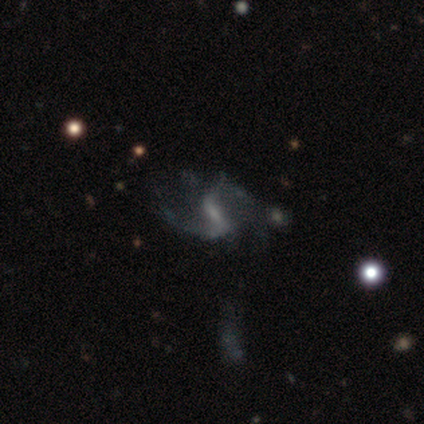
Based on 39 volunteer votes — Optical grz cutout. It shows a featured or disk galaxy (82%) with a weak bar (55%), 2 (85%) loose (58%) spiral arms (84%) and no central bulge (45%). Merging: none (50%).